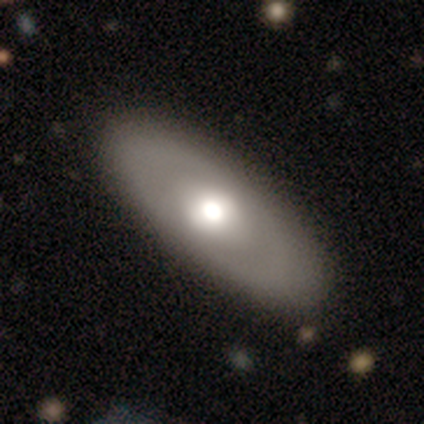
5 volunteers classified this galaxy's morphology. Q: Smooth or featured?
A: smooth (40%); tied with: featured or disk (40%)
Q: How rounded?
A: in between (100%)
Q: Merging?
A: none (100%)